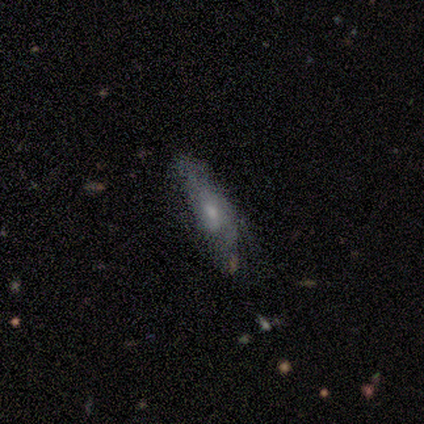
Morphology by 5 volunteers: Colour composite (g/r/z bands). It shows a smooth galaxy with no disk features (40%, tied with featured or disk) that is in between round and cigar-shaped (100%). Merging: minor disturbance (50%).